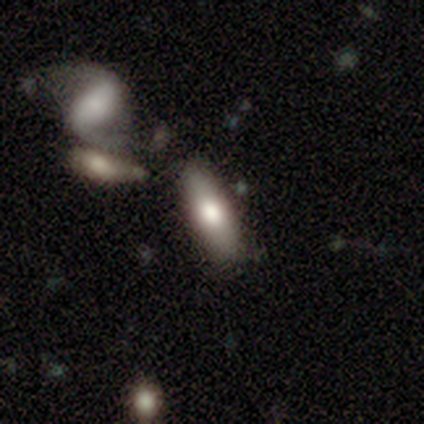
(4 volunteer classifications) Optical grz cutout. It shows a smooth galaxy with no disk features (100%) that is in between round and cigar-shaped (50%, tied with cigar-shaped). Merging: none (50%).